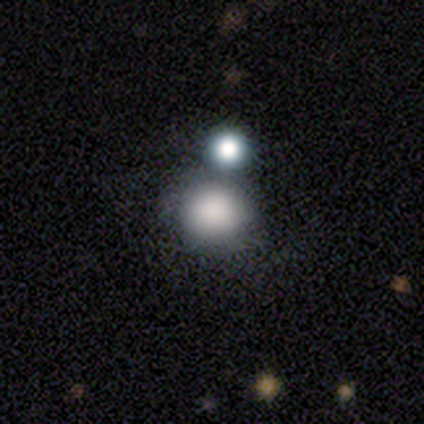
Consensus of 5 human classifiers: A smooth galaxy with no disk features (80%) that is round (100%). Merging: none (50%).